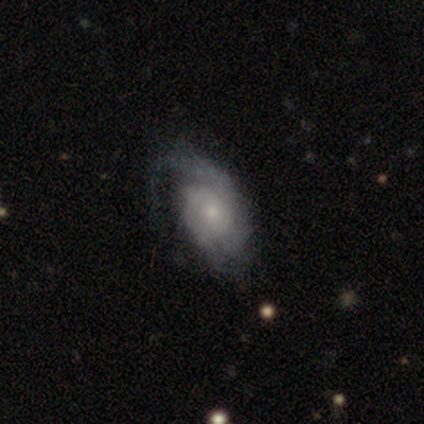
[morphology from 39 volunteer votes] Volunteers were most divided on "spiral winding": medium: 48%, tight: 41%, loose: 10%. More confident: edge-on disk — no (100%); spiral arms — yes (100%); bar — no (86%); smooth or featured — featured or disk (74%); bulge size — small (59%); spiral arm count — 2 (59%); merging — none (54%).